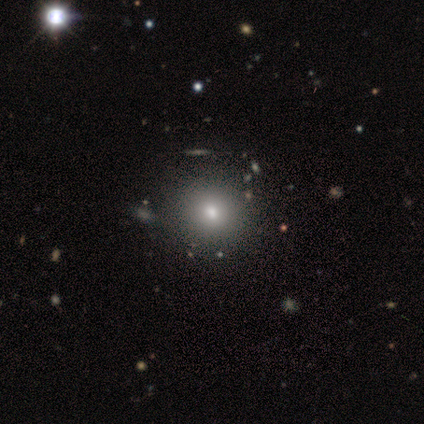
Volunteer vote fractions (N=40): Smooth or featured: smooth — 72% (featured or disk — 18%)
How rounded: round — 97% (in between — 3%)
Merging: none — 72% (minor disturbance — 3%)